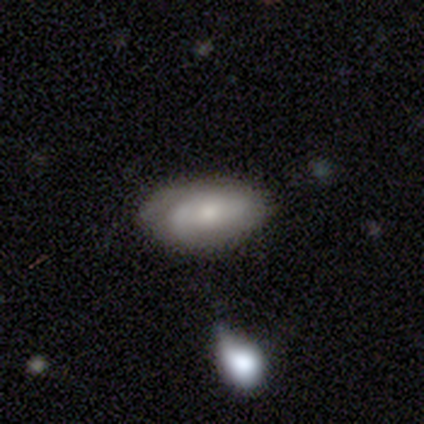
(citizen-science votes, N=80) Smooth or featured?
  - featured or disk: 55% *
  - smooth: 40%
  - star or artifact: 5%
Edge-on disk?
  - no: 98% *
  - yes: 2%
Bar?
  - no: 74% *
  - weak: 26%
  - strong: 0%
Spiral arms?
  - yes: 77% *
  - no: 23%
Spiral winding?
  - tight: 39% *
  - medium: 36%
  - loose: 24%
Spiral arm count?
  - can't tell: 42% *
  - 2: 39%
  - 1: 12%
  - 3: 6%
  - 4: 0%
  - more than 4: 0%
Bulge size?
  - small: 47% *
  - moderate: 44%
  - large: 5%
  - none: 5%
  - dominant: 0%
Merging?
  - none: 34% *
  - minor disturbance: 18%
  - merger: 9%
  - major disturbance: 1%